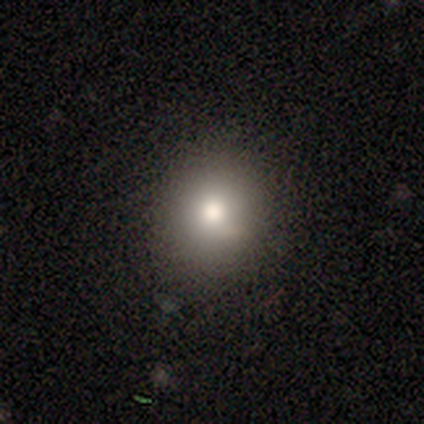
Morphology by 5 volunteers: A smooth galaxy with no disk features (100%) that is in between round and cigar-shaped (60%).

Vote fractions:
- Smooth or featured? smooth: 100% / featured or disk: 0% / star or artifact: 0%
- How rounded? in between: 60% / round: 40% / cigar-shaped: 0%
- Merging? none: 60% / minor disturbance: 20% / major disturbance: 20% / merger: 0%